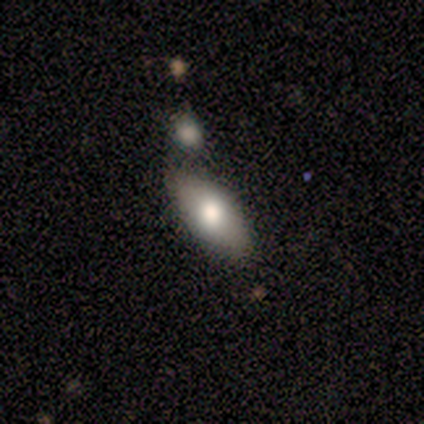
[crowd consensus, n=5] Q: Smooth or featured?
A: smooth (60%); runner-up: featured or disk (40%)
Q: How rounded?
A: in between (100%)
Q: Merging?
A: none (60%); runner-up: minor disturbance (20%)